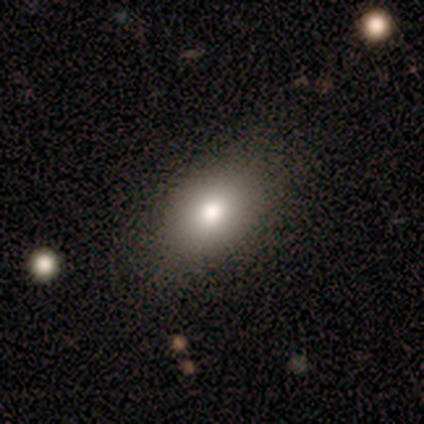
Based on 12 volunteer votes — A smooth galaxy with no disk features (83%) that is in between round and cigar-shaped (80%). Merging: none (92%).